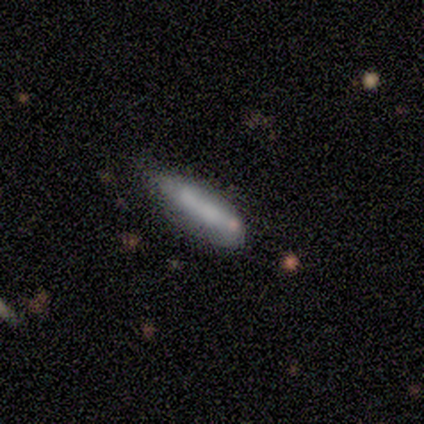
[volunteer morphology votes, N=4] This is clearly a smooth galaxy (100%). How rounded: possibly in between (50%, tied with cigar-shaped). Merging: possibly none (50%).